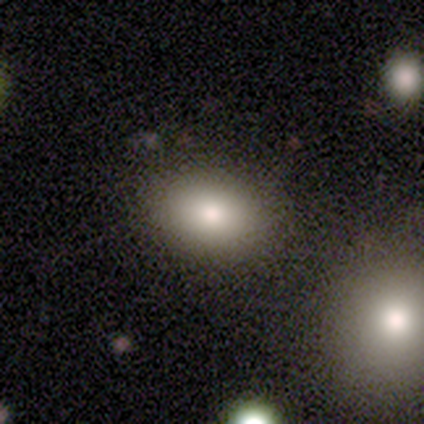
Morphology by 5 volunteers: smooth 100%, featured or disk 0%, star or artifact 0%. Down the decision tree: how rounded — in between (80%); merging — none (80%).